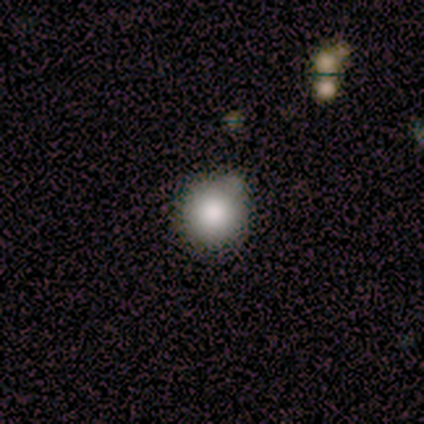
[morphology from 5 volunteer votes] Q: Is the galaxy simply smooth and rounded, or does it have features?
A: smooth — 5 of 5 (100%).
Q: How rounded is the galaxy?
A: round — 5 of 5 (100%).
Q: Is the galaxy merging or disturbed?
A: none — 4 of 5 (80%).